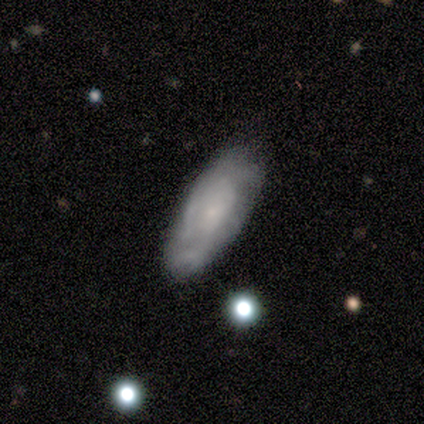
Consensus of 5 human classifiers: Smooth or featured? smooth (60%)
How rounded? in between (100%)
Merging? none (60%)